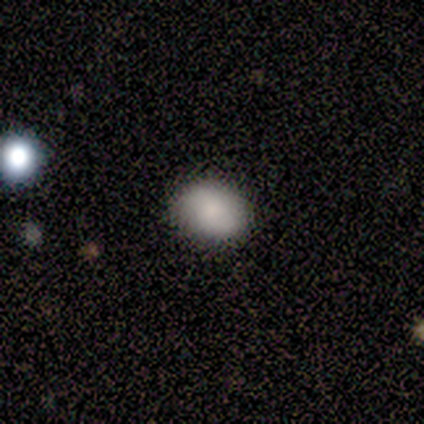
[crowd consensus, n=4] Overall: smooth (75%). How rounded: in between (67%; round 33%). Merging: none (100%).